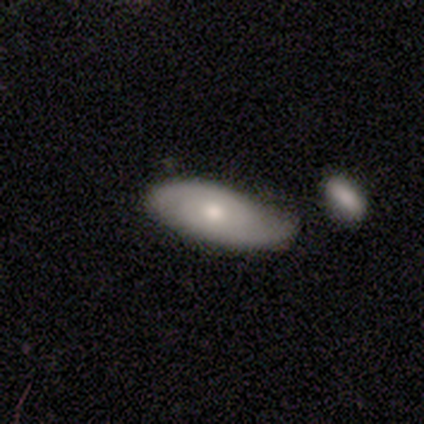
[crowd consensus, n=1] smooth-or-featured: smooth: 100% | featured or disk: 0% | star or artifact: 0%
  how-rounded: in between: 100% | round: 0% | cigar-shaped: 0%
  merging: minor disturbance: 100% | none: 0% | major disturbance: 0% | merger: 0%